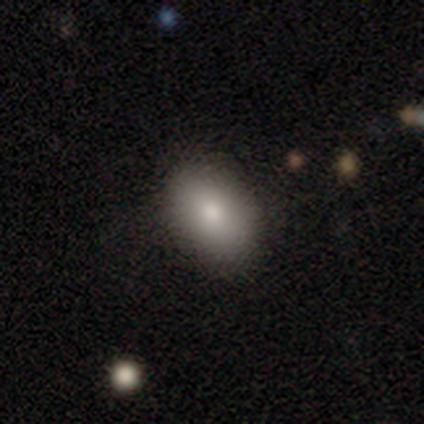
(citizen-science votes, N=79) smooth 87%, featured or disk 6%, star or artifact 6%. Down the decision tree: how rounded — in between (71%); merging — none (42%).